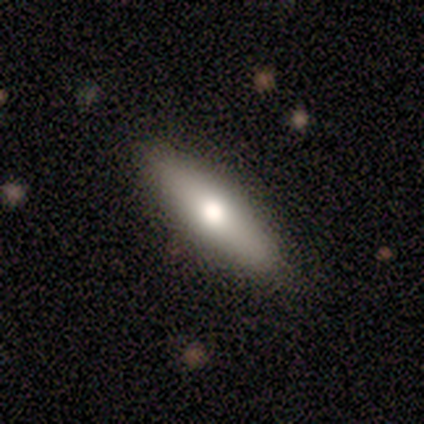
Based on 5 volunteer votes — This is likely a smooth galaxy (60%). How rounded: likely cigar-shaped (67%). Merging: clearly none (80%).